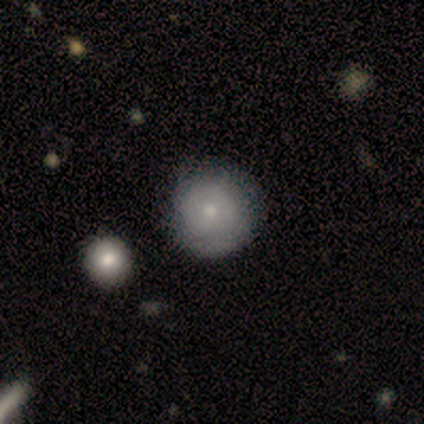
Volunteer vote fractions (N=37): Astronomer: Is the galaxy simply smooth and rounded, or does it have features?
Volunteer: smooth — 73%.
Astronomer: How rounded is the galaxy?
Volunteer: round — 96%.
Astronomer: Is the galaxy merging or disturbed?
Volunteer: none — 83%.